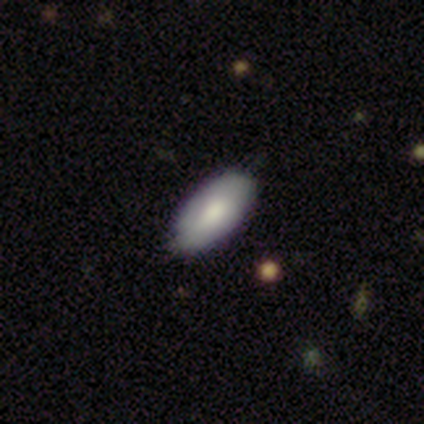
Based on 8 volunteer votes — smooth_or_featured: smooth (p=0.88) [alt: featured or disk p=0.12]
how_rounded: in between (p=1.00)
merging: none (p=1.00)